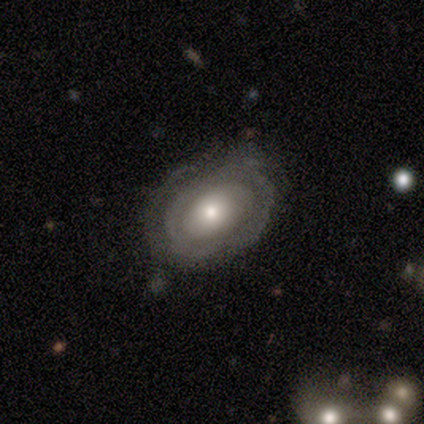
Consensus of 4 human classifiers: featured or disk 100%, smooth 0%, star or artifact 0%. Down the decision tree: edge-on disk — yes (50%, tied with no); edge-on bulge — rounded (100%); merging — none (100%).